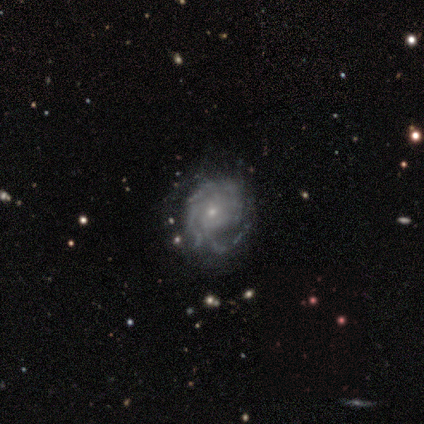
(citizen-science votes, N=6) Smooth or featured?
  - featured or disk: 67% *
  - smooth: 17%
  - star or artifact: 17%
Edge-on disk?
  - no: 100% *
  - yes: 0%
Bar?
  - no: 100% *
  - strong: 0%
  - weak: 0%
Spiral arms?
  - yes: 100% *
  - no: 0%
Spiral winding?
  - tight: 50% * (tied)
  - medium: 50% * (tied)
  - loose: 0%
Spiral arm count?
  - 4: 50% *
  - 1: 25%
  - 3: 25%
  - 2: 0%
  - more than 4: 0%
  - can't tell: 0%
Bulge size?
  - small: 100% *
  - dominant: 0%
  - large: 0%
  - moderate: 0%
  - none: 0%
Merging?
  - none: 40% * (tied)
  - minor disturbance: 40% * (tied)
  - major disturbance: 20%
  - merger: 0%